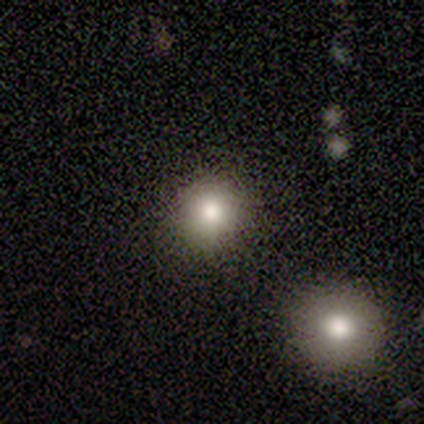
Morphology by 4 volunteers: Smooth or featured?
  - smooth: 75% *
  - star or artifact: 25%
  - featured or disk: 0%
How rounded?
  - round: 100% *
  - in between: 0%
  - cigar-shaped: 0%
Merging?
  - none: 100% *
  - minor disturbance: 0%
  - major disturbance: 0%
  - merger: 0%